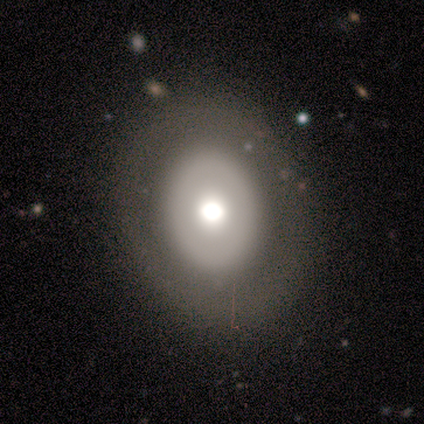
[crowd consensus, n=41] Morphology: type=featured or disk (51%); edge-on=no (100%); bar=no (100%); spiral arms=no (100%); bulge=large (52%); merging=none (88%).